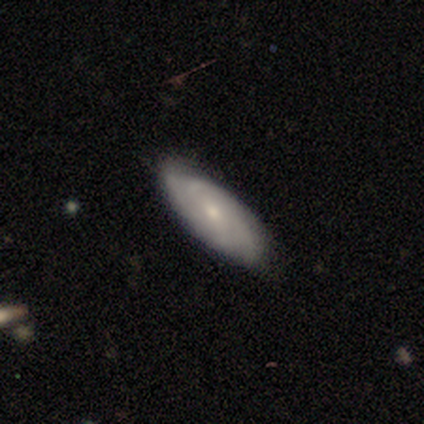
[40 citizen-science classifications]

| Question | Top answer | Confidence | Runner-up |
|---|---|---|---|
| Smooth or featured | featured or disk | 52% | smooth (40%) |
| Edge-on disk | no | 90% | yes (10%) |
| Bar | no | 58% | weak (42%) |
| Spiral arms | yes | 95% | no (5%) |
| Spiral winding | tight | 67% | medium (22%) |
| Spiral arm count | can't tell | 33% | 4 (22%) |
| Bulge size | small | 74% | moderate (16%) |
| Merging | none | 73% | minor disturbance (19%) |